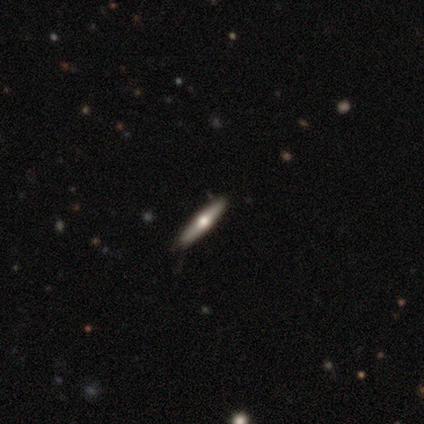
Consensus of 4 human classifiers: Morphology: type=featured or disk (100%); edge-on=yes (75%); edge-on bulge=rounded (100%); merging=none (100%).